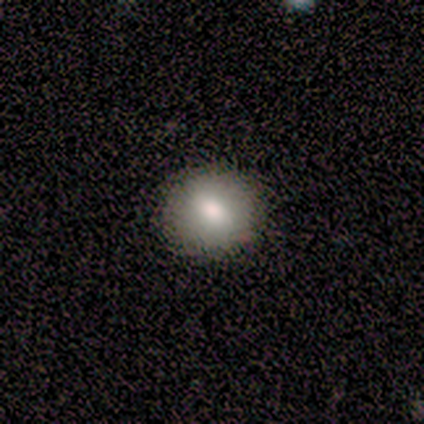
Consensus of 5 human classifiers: Smooth or featured? smooth (100%)
How rounded? round (80%)
Merging? none (100%)